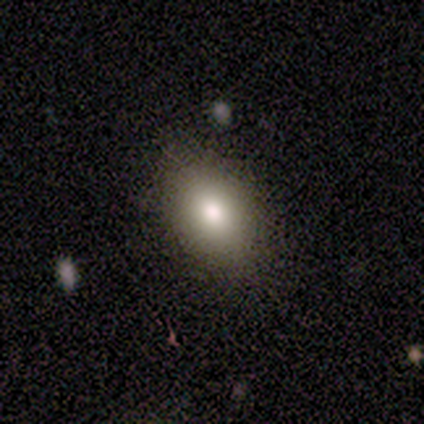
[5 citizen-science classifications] Smooth or featured? smooth (80%)
How rounded? in between (75%)
Merging? none (100%)